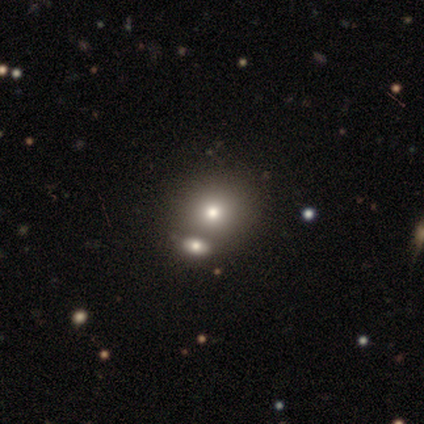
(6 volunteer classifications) Smooth or featured?
  - smooth: 67% *
  - featured or disk: 33%
  - star or artifact: 0%
How rounded?
  - round: 75% *
  - in between: 25%
  - cigar-shaped: 0%
Merging?
  - merger: 50% *
  - none: 33%
  - major disturbance: 17%
  - minor disturbance: 0%